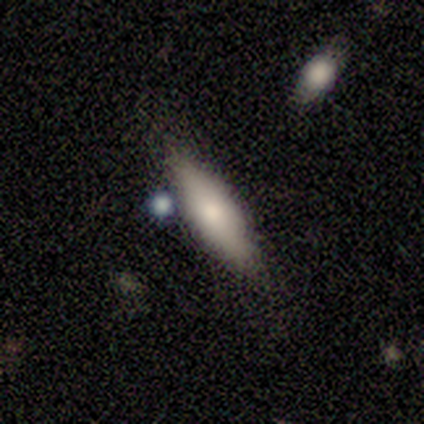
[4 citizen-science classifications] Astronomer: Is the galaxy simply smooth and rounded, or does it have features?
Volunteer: smooth — 100%.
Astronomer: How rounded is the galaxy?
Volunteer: in between — 50%, tied with cigar-shaped at 50%.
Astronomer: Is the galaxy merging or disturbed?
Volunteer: none — 75%.